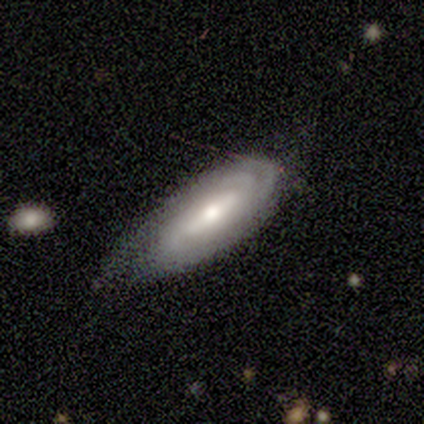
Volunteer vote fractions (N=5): A featured or disk galaxy (100%) with a weak bar (50%, tied with no), 2 (67%) tight (100%) spiral arms (75%) and a moderate central bulge (50%).

Vote fractions:
- Smooth or featured? featured or disk: 100% / smooth: 0% / star or artifact: 0%
- Edge-on disk? no: 80% / yes: 20%
- Bar? weak: 50% (tied) / no: 50% (tied) / strong: 0%
- Spiral arms? yes: 75% / no: 25%
- Spiral winding? tight: 100% / medium: 0% / loose: 0%
- Spiral arm count? 2: 67% / 4: 33% / 1: 0% / 3: 0% / more than 4: 0% / can't tell: 0%
- Bulge size? moderate: 50% / large: 25% / small: 25% / dominant: 0% / none: 0%
- Merging? none: 80% / minor disturbance: 20% / major disturbance: 0% / merger: 0%